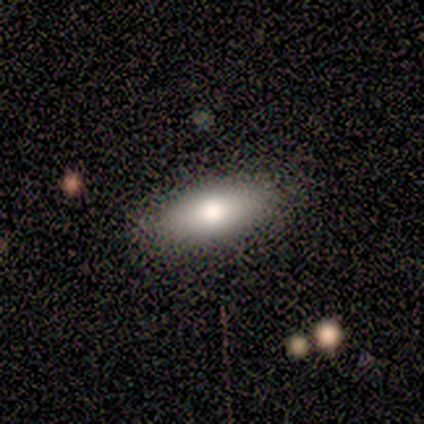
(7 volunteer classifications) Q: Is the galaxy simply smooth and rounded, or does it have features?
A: smooth — 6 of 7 (86%).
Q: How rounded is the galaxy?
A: in between — 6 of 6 (100%).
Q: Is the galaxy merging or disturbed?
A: none — 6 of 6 (100%).